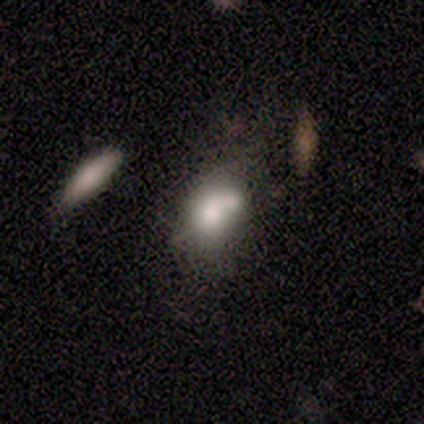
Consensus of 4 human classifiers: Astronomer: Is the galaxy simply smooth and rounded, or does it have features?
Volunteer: smooth — 50%.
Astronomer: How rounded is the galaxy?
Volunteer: in between — 100%.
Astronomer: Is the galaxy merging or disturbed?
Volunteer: merger — 67%.